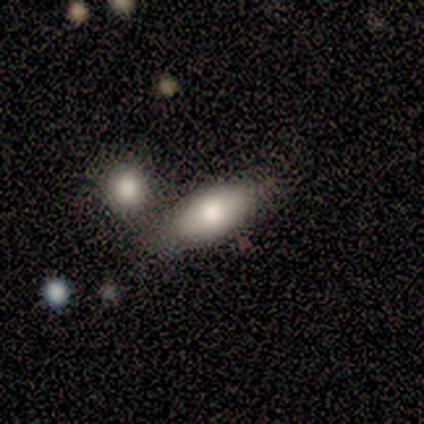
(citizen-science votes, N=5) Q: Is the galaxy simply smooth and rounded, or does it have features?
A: smooth — 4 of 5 (80%).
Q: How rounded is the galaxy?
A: in between — 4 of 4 (100%).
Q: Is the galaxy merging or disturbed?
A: none — 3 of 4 (75%).